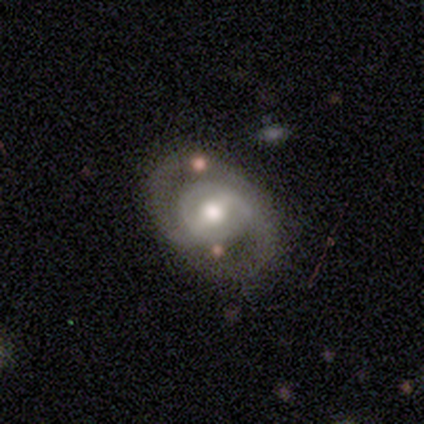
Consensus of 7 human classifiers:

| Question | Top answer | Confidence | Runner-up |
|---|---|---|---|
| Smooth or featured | featured or disk | 100% | — |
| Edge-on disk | no | 100% | — |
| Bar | weak | 57% | strong (43%) |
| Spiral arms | yes | 86% | no (14%) |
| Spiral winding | medium | 50% | tight (33%) |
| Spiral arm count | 2 | 83% | can't tell (17%) |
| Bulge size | moderate | 86% | small (14%) |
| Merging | none | 86% | minor disturbance (14%) |